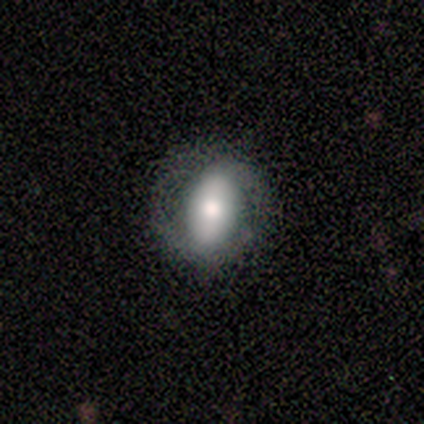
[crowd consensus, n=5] featured or disk 80%, smooth 20%, star or artifact 0%. Down the decision tree: edge-on disk — no (100%); bar — strong (50%, tied with weak); spiral arms — yes (75%); spiral arm count — 2 (67%); spiral winding — loose (67%); bulge size — moderate (50%, tied with small); merging — none (60%).